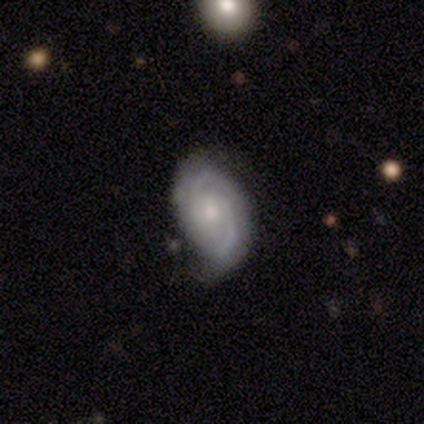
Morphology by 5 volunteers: type=featured or disk (100%); edge-on=no (80%); bar=no (50%); spiral arms=yes (100%); winding=medium (75%); arm count=2 (50%, tied with can't tell); bulge=small (50%); merging=none (100%).